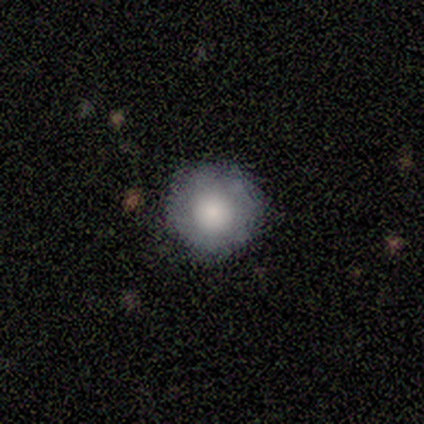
This is clearly a smooth galaxy (91%). How rounded: clearly round (100%). Merging: clearly none (91%).